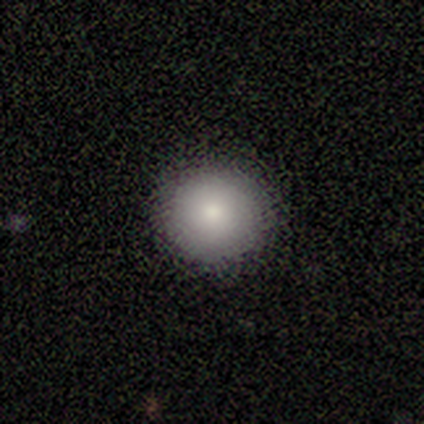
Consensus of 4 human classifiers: Overall: smooth (75%). How rounded: round (100%). Merging: none (100%).